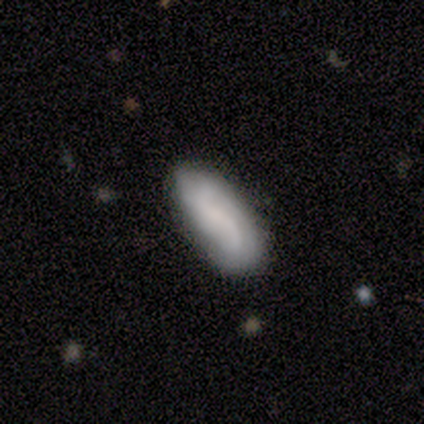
Smooth or featured? smooth (60%)
How rounded? cigar-shaped (67%)
Merging? none (80%)